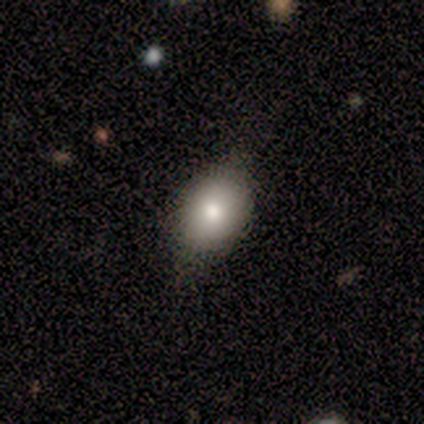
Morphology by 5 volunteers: This appears to be a smooth galaxy with no disk features (80%) that is in between round and cigar-shaped (75%). Merging: none (80%).